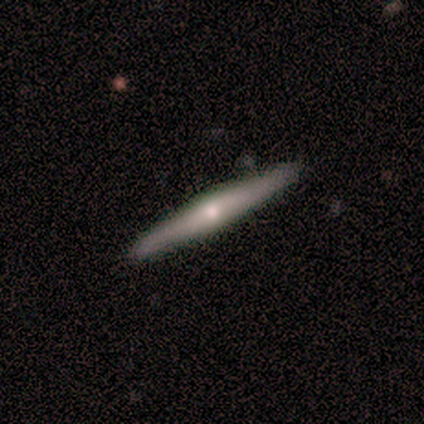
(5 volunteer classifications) Overall: featured or disk (100%). Edge-on disk: yes (80%). Edge-on bulge: rounded (100%). Merging: none (100%).